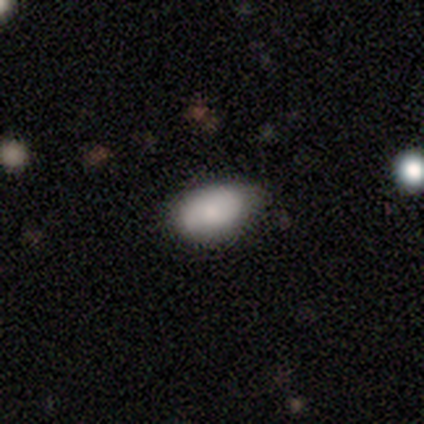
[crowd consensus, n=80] A smooth galaxy with no disk features (82%) that is in between round and cigar-shaped (97%). Merging: none (51%).